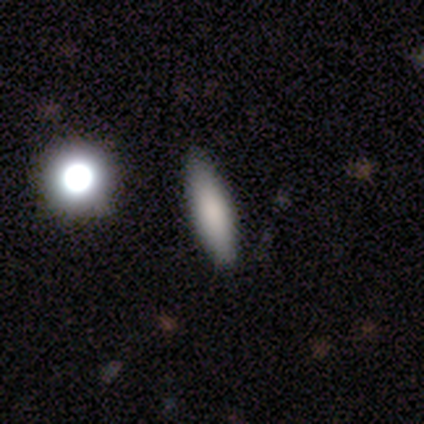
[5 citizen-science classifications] This is clearly a smooth galaxy (100%). How rounded: clearly cigar-shaped (100%). Merging: clearly none (100%).